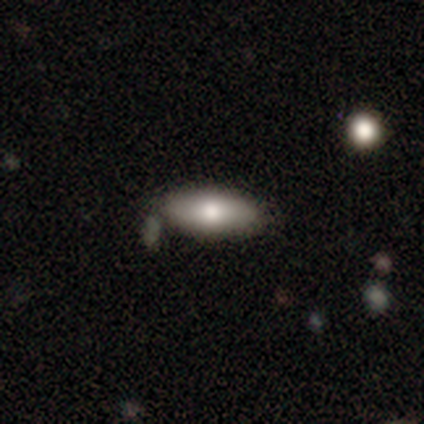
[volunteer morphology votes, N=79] A smooth galaxy with no disk features (77%) that is in between round and cigar-shaped (89%). Merging: none (45%).